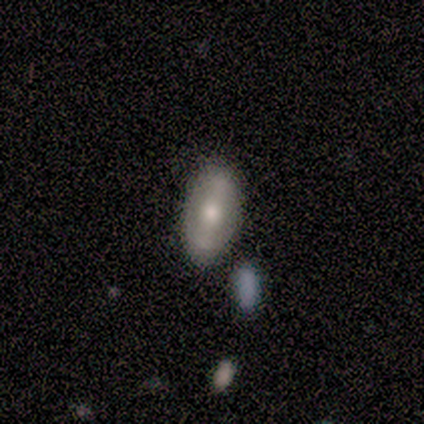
Smooth or featured?
  - featured or disk: 60% *
  - smooth: 40%
  - star or artifact: 0%
Edge-on disk?
  - no: 100% *
  - yes: 0%
Bar?
  - weak: 100% *
  - strong: 0%
  - no: 0%
Spiral arms?
  - no: 67% *
  - yes: 33%
Bulge size?
  - moderate: 67% *
  - small: 33%
  - dominant: 0%
  - large: 0%
  - none: 0%
Merging?
  - none: 60% *
  - major disturbance: 40%
  - minor disturbance: 0%
  - merger: 0%